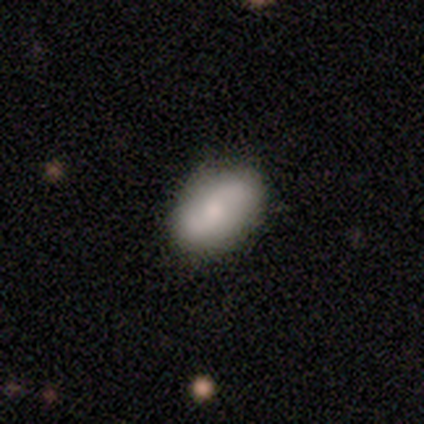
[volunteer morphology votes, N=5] A featured or disk galaxy (80%) with no bar (100%), 2 (100%) loose (75%) spiral arms (100%) and a moderate central bulge (50%, tied with small).

Vote fractions:
- Smooth or featured? featured or disk: 80% / smooth: 20% / star or artifact: 0%
- Edge-on disk? no: 100% / yes: 0%
- Bar? no: 100% / strong: 0% / weak: 0%
- Spiral arms? yes: 100% / no: 0%
- Spiral winding? loose: 75% / medium: 25% / tight: 0%
- Spiral arm count? 2: 100% / 1: 0% / 3: 0% / 4: 0% / more than 4: 0% / can't tell: 0%
- Bulge size? moderate: 50% (tied) / small: 50% (tied) / dominant: 0% / large: 0% / none: 0%
- Merging? none: 60% / minor disturbance: 20% / major disturbance: 20% / merger: 0%